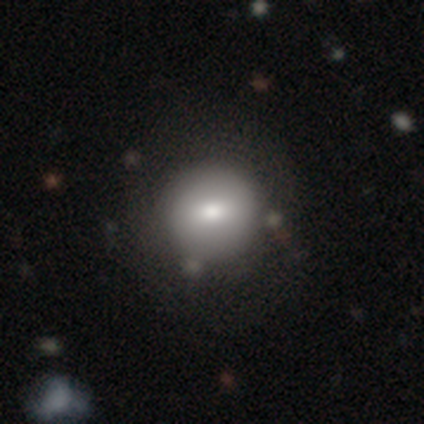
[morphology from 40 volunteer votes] type=smooth (80%); roundness=round (91%); merging=none (66%).